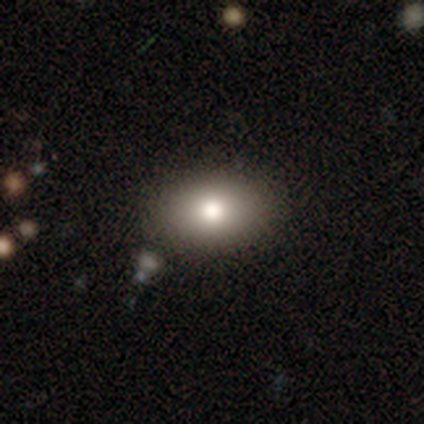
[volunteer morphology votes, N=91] smooth 75%, featured or disk 13%, star or artifact 12%. Down the decision tree: how rounded — in between (85%); merging — none (89%).